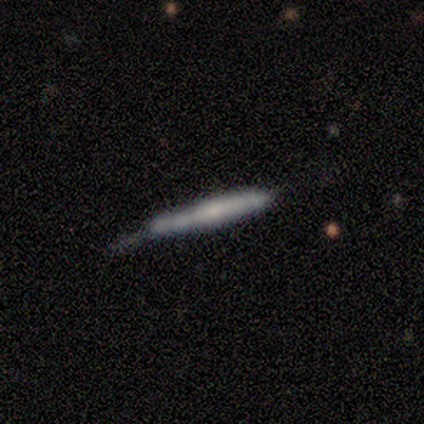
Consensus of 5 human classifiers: This is likely a featured or disk galaxy (60%). It is clearly viewed edge-on (100%). Edge-on bulge: clearly none (100%). Merging: clearly none (100%).